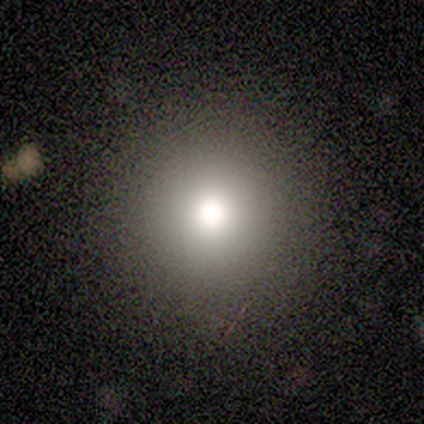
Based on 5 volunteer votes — smooth_or_featured: smooth (p=0.60) [alt: featured or disk p=0.20]
how_rounded: round (p=1.00)
merging: none (p=1.00)